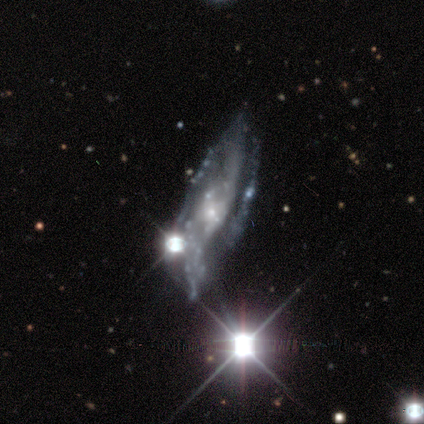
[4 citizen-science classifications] Smooth or featured: featured or disk — 50% (smooth — 25%)
Edge-on disk: no — 100%
Bar: weak — 50% (tied with no — 50%)
Spiral arms: yes — 50% (tied with no — 50%)
Spiral winding: tight — 100%
Spiral arm count: 3 — 100%
Bulge size: small — 100%
Merging: major disturbance — 67% (minor disturbance — 33%)